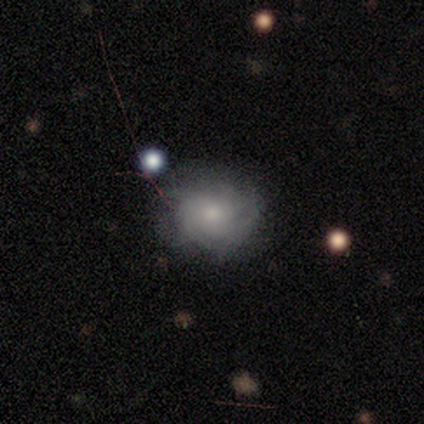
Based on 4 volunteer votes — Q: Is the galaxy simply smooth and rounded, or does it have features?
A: smooth — 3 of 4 (75%).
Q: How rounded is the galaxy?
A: round — 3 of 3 (100%).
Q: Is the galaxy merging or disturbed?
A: none — 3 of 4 (75%).